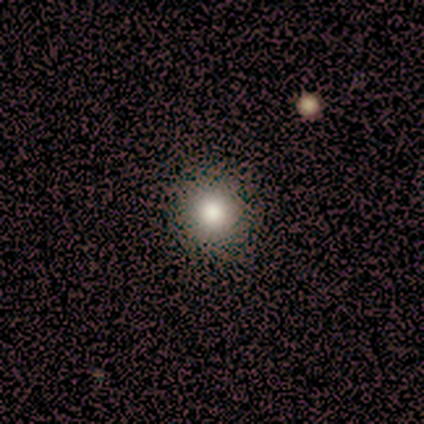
Smooth or featured: smooth — 50% (tied with star or artifact — 50%)
How rounded: round — 100%
Merging: none — 100%